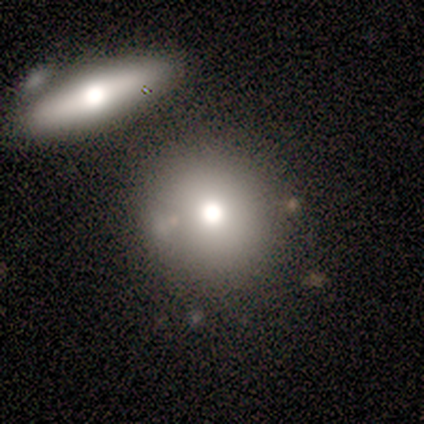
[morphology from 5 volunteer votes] Volunteers were most divided on "merging": none: 60%, minor disturbance: 40%, major disturbance: 0%, merger: 0%. More confident: smooth or featured — smooth (100%); how rounded — round (100%).